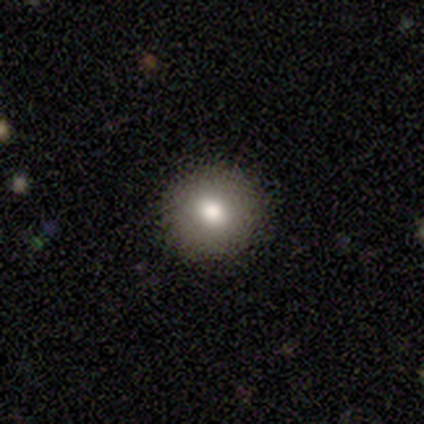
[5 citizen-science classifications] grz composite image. It shows a smooth galaxy with no disk features (60%) that is round (100%). Merging: none (80%).